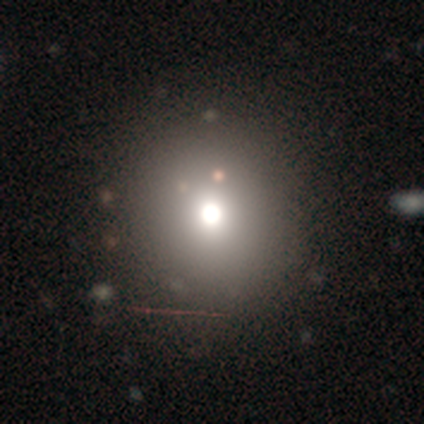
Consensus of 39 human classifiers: smooth-or-featured: smooth: 51% | star or artifact: 36% | featured or disk: 13%
  how-rounded: round: 100% | in between: 0% | cigar-shaped: 0%
  merging: none: 92% | minor disturbance: 4% | major disturbance: 4% | merger: 0%